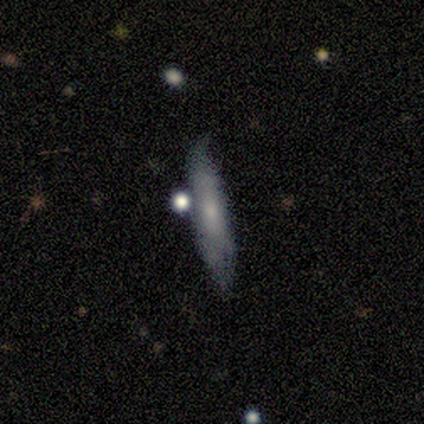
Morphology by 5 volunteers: Smooth or featured?
  - smooth: 80% *
  - featured or disk: 20%
  - star or artifact: 0%
How rounded?
  - in between: 75% *
  - cigar-shaped: 25%
  - round: 0%
Merging?
  - none: 80% *
  - minor disturbance: 20%
  - major disturbance: 0%
  - merger: 0%